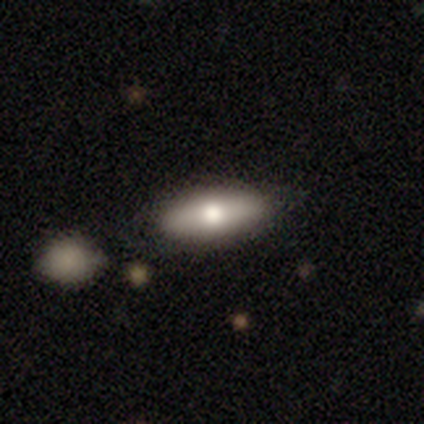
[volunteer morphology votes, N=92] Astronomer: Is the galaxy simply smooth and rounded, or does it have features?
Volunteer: smooth — 77%.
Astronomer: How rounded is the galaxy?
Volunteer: in between — 77%.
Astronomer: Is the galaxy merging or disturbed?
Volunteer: none — 81%.